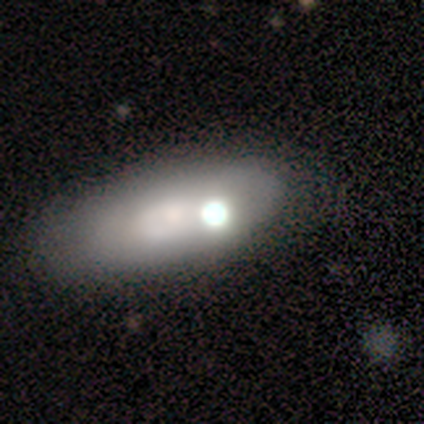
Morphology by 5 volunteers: featured or disk 60%, smooth 20%, star or artifact 20%. Down the decision tree: edge-on disk — no (100%); bar — strong (33%, tied with weak and no); spiral arms — no (100%); bulge size — moderate (67%); merging — none (100%).